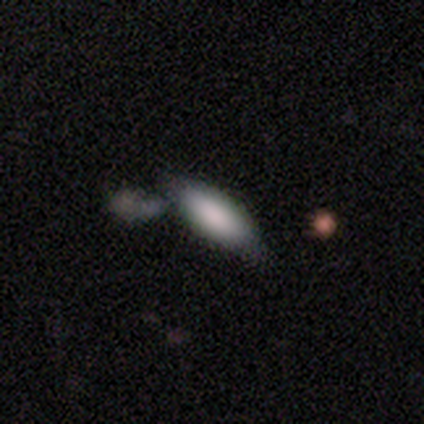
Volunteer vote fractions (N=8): A smooth galaxy with no disk features (75%) that is in between round and cigar-shaped (50%, tied with cigar-shaped). Merging: none (38%, tied with merger).